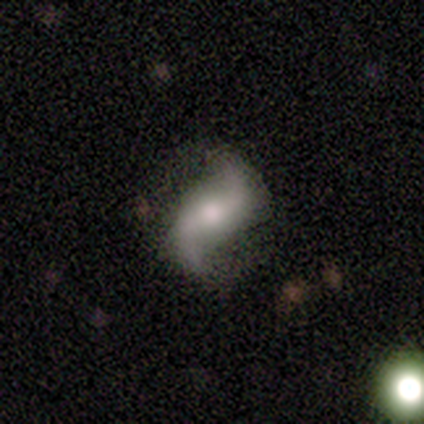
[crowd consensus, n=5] Volunteers were most divided on "bulge size" (2-way tie): large: 50%, small: 50%, dominant: 0%, moderate: 0%, none: 0%. More confident: edge-on disk — no (100%); spiral arm count — 2 (100%); merging — none (100%); smooth or featured — featured or disk (80%); bar — strong (75%); spiral arms — yes (75%); spiral winding — loose (67%).